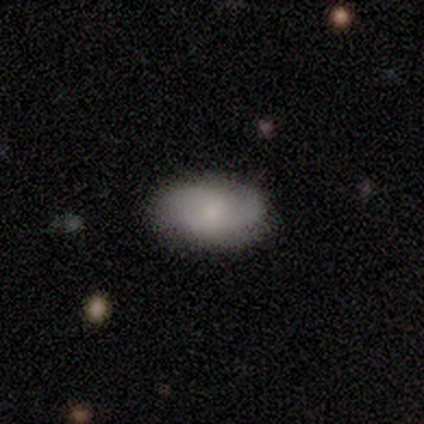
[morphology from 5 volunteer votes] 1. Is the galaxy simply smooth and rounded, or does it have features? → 60% smooth, 40% featured or disk, 0% star or artifact.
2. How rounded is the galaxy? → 100% in between, 0% round, 0% cigar-shaped.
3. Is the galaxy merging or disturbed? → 100% none, 0% minor disturbance, 0% major disturbance, 0% merger.